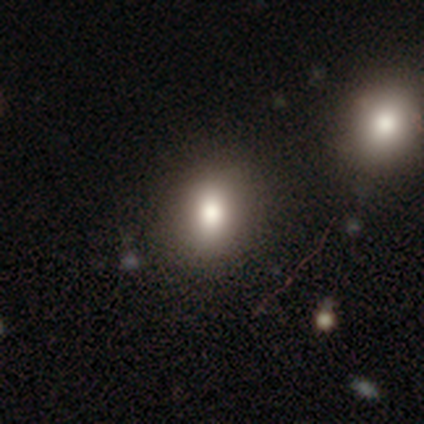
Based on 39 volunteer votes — smooth_or_featured: smooth (p=0.82) [alt: star or artifact p=0.15]
how_rounded: round (p=0.50) [tied with: in between p=0.50]
merging: none (p=0.85) [alt: minor disturbance p=0.12]